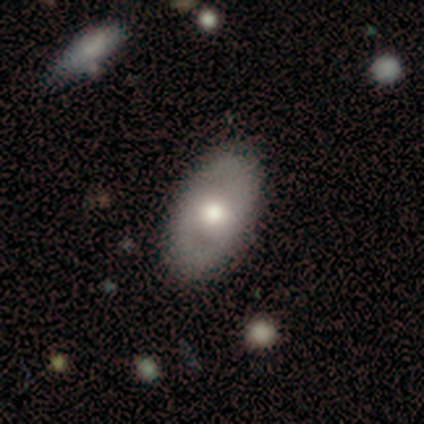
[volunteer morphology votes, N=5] smooth_or_featured: featured or disk (p=0.60) [alt: smooth p=0.40]
disk_edge_on: no (p=1.00)
bar: no (p=1.00)
has_spiral_arms: no (p=1.00)
bulge_size: large (p=0.33) [tied with: moderate p=0.33, small p=0.33]
merging: none (p=1.00)